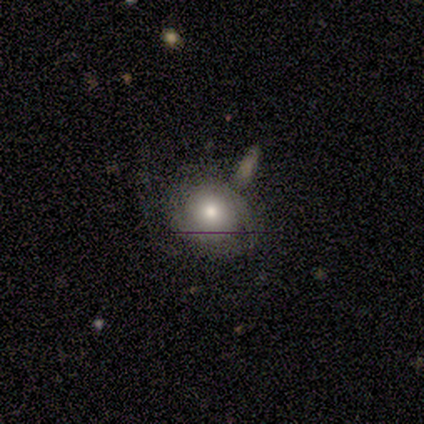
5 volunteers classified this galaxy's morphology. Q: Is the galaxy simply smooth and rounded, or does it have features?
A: smooth — 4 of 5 (80%).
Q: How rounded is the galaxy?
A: round — 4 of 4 (100%).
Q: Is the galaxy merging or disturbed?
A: none — 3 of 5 (60%).